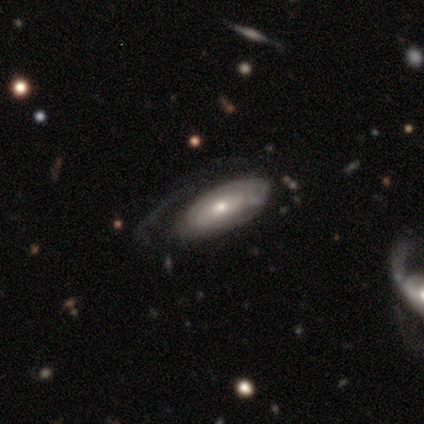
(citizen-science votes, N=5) This is clearly a featured or disk galaxy (80%). It is likely not viewed edge-on (75%). Bar: clearly no (100%). Spiral arm pattern: likely no (67%). Central bulge: likely moderate (67%). Merging: likely none (60%).